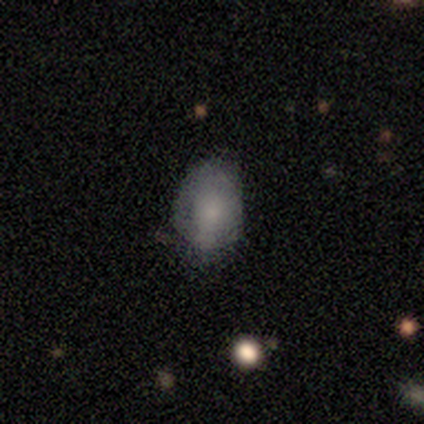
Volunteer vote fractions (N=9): Volunteers were most divided on "smooth or featured": smooth: 56%, featured or disk: 33%, star or artifact: 11%. More confident: how rounded — in between (100%); merging — none (62%).